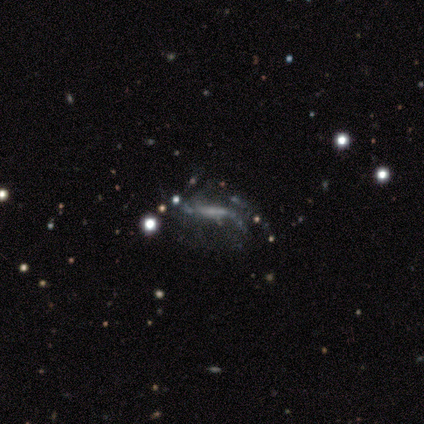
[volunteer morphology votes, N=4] Smooth or featured? 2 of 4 (50%) said star or artifact.